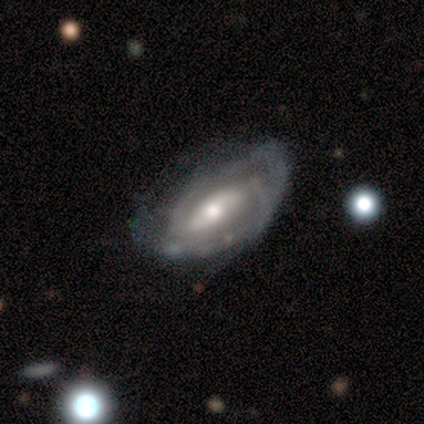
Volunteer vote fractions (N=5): Smooth or featured: featured or disk — 100%
Edge-on disk: no — 100%
Bar: strong — 40% (tied with weak — 40%)
Spiral arms: yes — 100%
Spiral winding: medium — 60% (tight — 20%)
Spiral arm count: 3 — 40% (tied with can't tell — 40%)
Bulge size: moderate — 40% (tied with small — 40%)
Merging: none — 60% (minor disturbance — 20%)